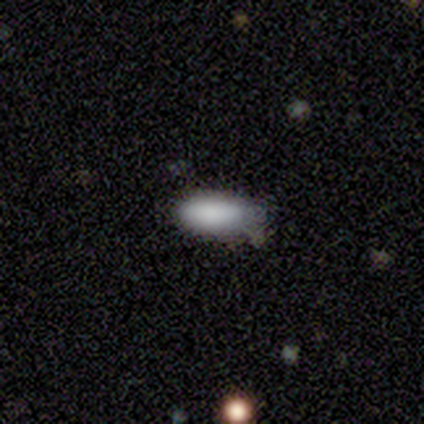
Overall: smooth (100%). How rounded: in between (80%). Merging: none (60%; minor disturbance 40%).